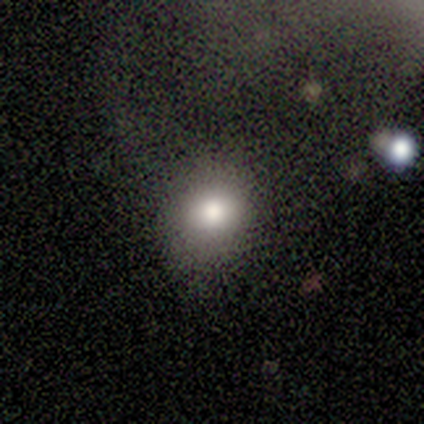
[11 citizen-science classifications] Morphology: type=smooth (64%); roundness=round (100%); merging=none (70%).